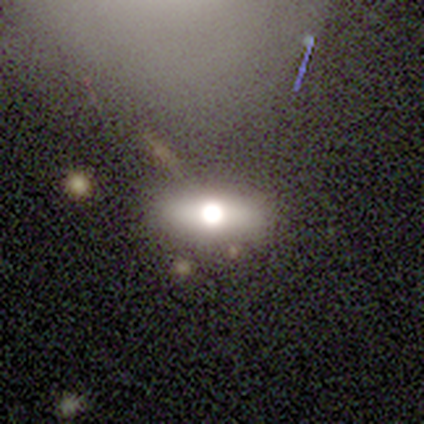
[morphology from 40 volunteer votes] This is marginally a smooth galaxy (42%). How rounded: likely in between (71%). Merging: likely none (75%).